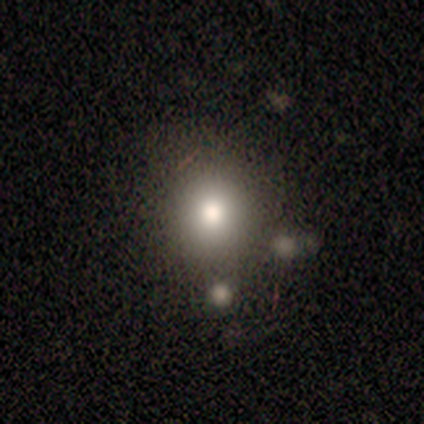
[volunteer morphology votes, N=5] This is likely a smooth galaxy (60%). How rounded: clearly round (100%). Merging: clearly none (100%).